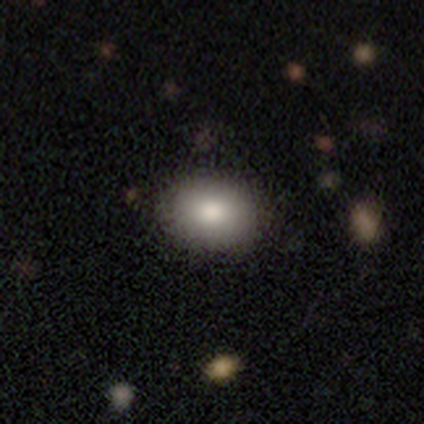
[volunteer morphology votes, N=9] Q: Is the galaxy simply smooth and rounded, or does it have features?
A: smooth — 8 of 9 (89%).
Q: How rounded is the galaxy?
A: round — 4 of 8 (50%, tied with in between).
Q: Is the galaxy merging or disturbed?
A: none — 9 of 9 (100%).